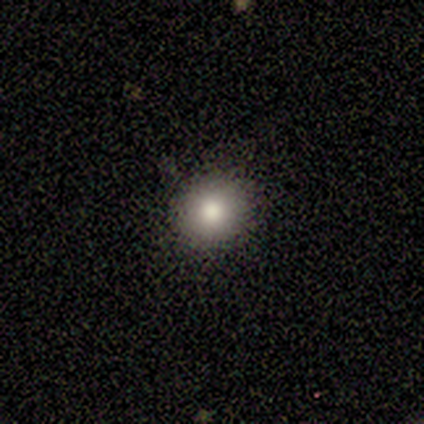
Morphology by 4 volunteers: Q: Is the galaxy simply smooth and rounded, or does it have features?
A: smooth — 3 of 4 (75%).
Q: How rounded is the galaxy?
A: round — 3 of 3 (100%).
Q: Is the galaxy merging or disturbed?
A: none — 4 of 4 (100%).